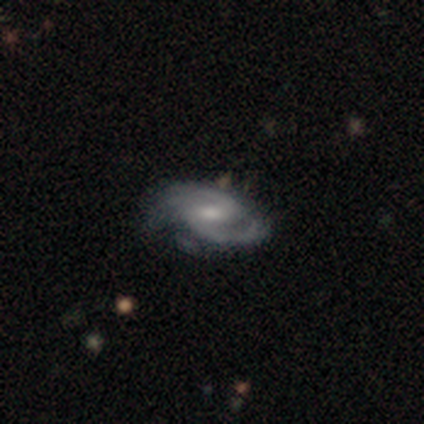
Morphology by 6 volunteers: type=featured or disk (100%); edge-on=no (100%); bar=strong (50%, tied with weak); spiral arms=yes (83%); winding=medium (60%); arm count=2 (100%); bulge=moderate (50%, tied with small); merging=none (50%, tied with minor disturbance).